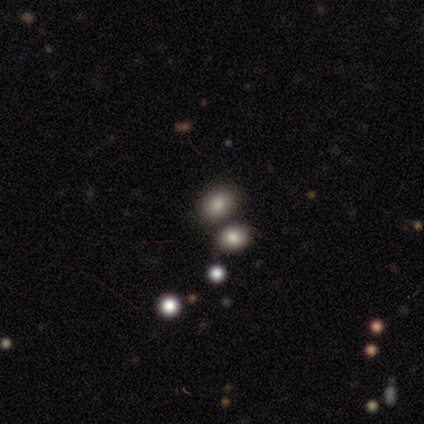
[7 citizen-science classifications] smooth 71%, featured or disk 14%, star or artifact 14%. Down the decision tree: how rounded — round (60%); merging — none (83%).